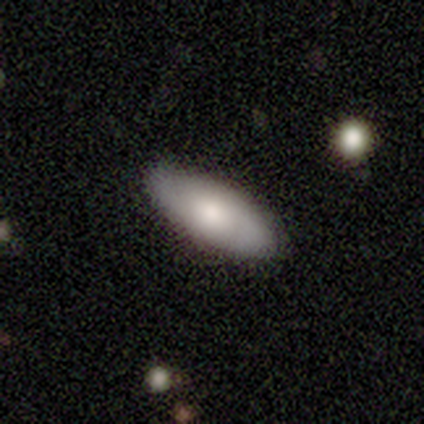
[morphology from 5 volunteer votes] Q: Smooth or featured?
A: smooth (40%); tied with: featured or disk (40%)
Q: How rounded?
A: in between (50%); tied with: cigar-shaped (50%)
Q: Merging?
A: none (75%); runner-up: major disturbance (25%)